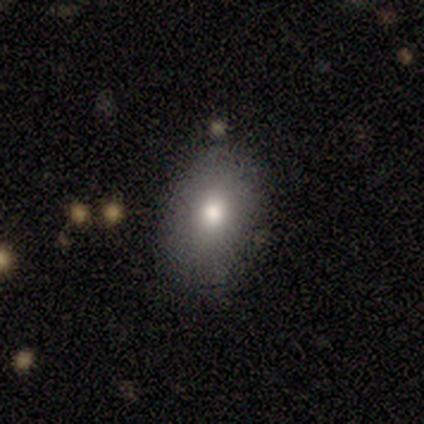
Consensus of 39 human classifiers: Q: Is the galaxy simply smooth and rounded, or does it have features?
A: smooth — 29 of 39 (74%).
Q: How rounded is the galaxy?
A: in between — 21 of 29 (72%).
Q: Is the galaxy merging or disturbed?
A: none — 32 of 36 (89%).